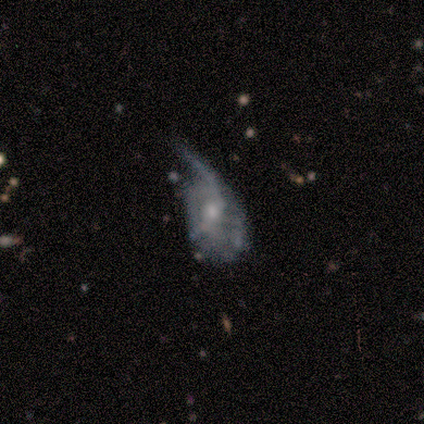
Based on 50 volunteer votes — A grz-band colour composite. It shows a featured or disk galaxy (62%) with no bar (70%), no spiral arms (60%) and a moderate central bulge (50%). Merging: major disturbance (51%).